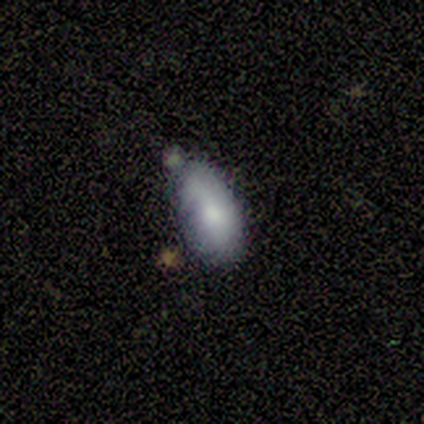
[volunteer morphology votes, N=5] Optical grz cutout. It shows a featured or disk galaxy (60%) with no bar (100%), no spiral arms (100%) and a large central bulge (33%, tied with moderate and small). Merging: minor disturbance (60%).